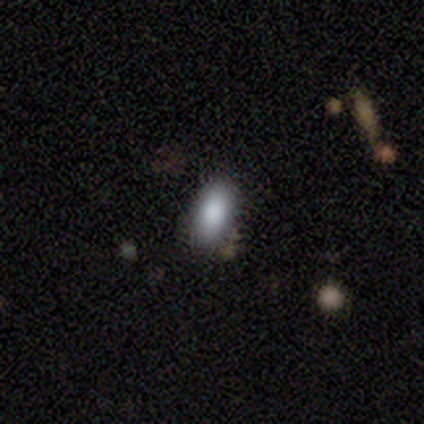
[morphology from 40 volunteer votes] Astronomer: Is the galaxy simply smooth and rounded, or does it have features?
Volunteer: smooth — 90%.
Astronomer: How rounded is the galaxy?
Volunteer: in between — 94%.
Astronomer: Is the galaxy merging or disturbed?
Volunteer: none — 85%.